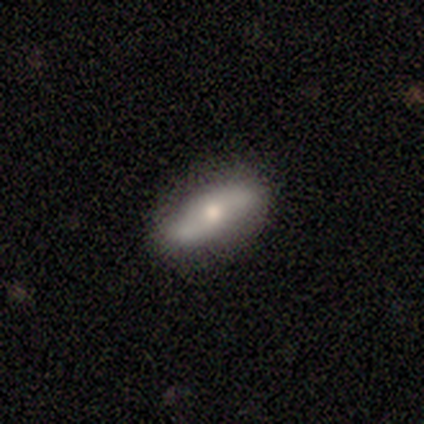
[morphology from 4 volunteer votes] smooth-or-featured: featured or disk: 100% | smooth: 0% | star or artifact: 0%
  disk-edge-on: no: 100% | yes: 0%
    bar: no: 75% | weak: 25% | strong: 0%
    has-spiral-arms: yes: 75% | no: 25%
      spiral-winding: loose: 67% | medium: 33% | tight: 0%
      spiral-arm-count: 2: 100% | 1: 0% | 3: 0% | 4: 0% | more than 4: 0% | can't tell: 0%
    bulge-size: moderate: 75% | small: 25% | dominant: 0% | large: 0% | none: 0%
  merging: none: 100% | minor disturbance: 0% | major disturbance: 0% | merger: 0%